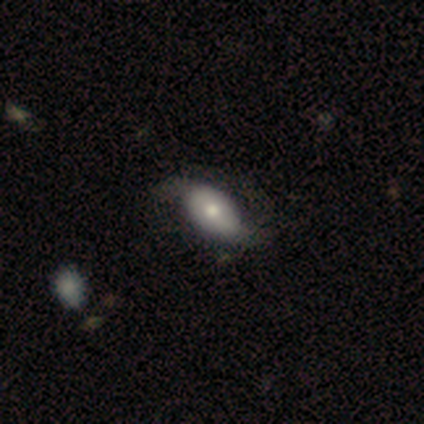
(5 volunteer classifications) Morphology: type=featured or disk (60%); edge-on=no (67%); bar=strong (50%, tied with no); spiral arms=yes (100%); winding=loose (100%); arm count=2 (100%); bulge=dominant (50%, tied with large); merging=none (60%).